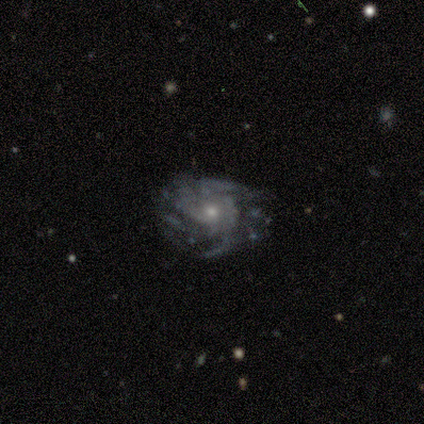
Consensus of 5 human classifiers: Smooth or featured? featured or disk (100%)
Edge-on disk? no (100%)
Bar? no (80%)
Spiral arms? yes (100%)
Spiral winding? medium (60%)
Spiral arm count? can't tell (60%)
Bulge size? small (60%)
Merging? none (60%)